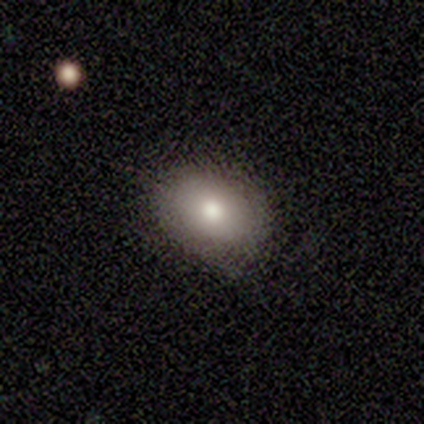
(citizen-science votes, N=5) Smooth or featured? smooth (100%)
How rounded? in between (80%)
Merging? none (60%)